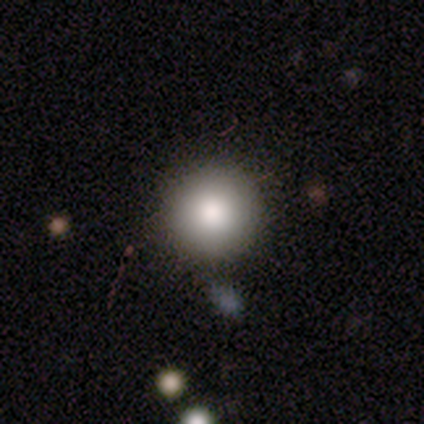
Smooth or featured?
  - smooth: 80% *
  - star or artifact: 20%
  - featured or disk: 0%
How rounded?
  - round: 100% *
  - in between: 0%
  - cigar-shaped: 0%
Merging?
  - none: 75% *
  - major disturbance: 25%
  - minor disturbance: 0%
  - merger: 0%